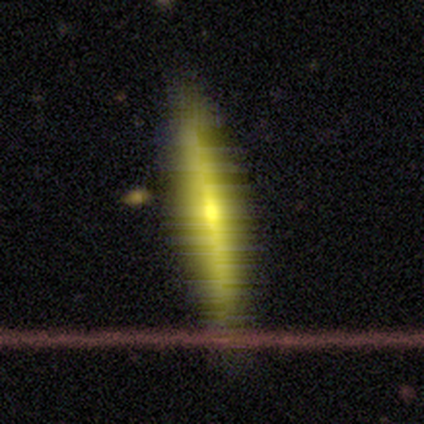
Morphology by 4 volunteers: type=smooth (50%); roundness=in between (100%); merging=none (67%).